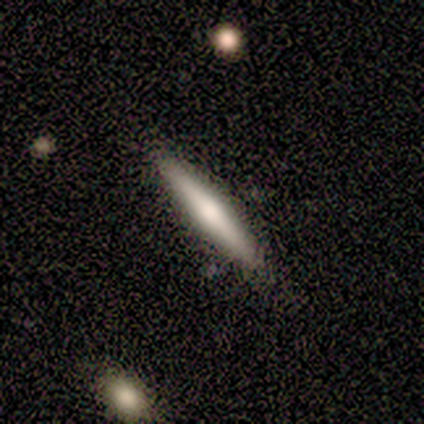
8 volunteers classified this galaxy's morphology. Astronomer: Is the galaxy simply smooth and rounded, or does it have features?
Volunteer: featured or disk — 62%.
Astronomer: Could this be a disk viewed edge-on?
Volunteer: yes — 100%.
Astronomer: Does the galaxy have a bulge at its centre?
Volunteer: rounded — 80%.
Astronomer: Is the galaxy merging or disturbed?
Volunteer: none — 62%.